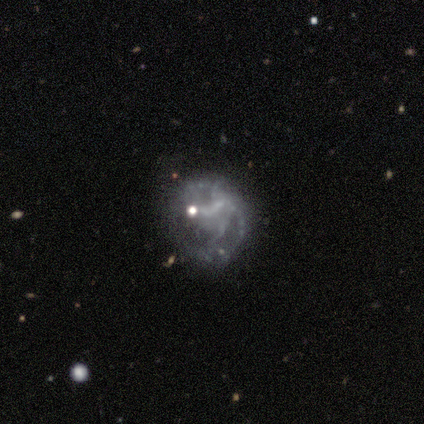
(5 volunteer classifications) A featured or disk galaxy (60%) with no bar (67%), 4 (50%, tied with can't tell) medium (100%) spiral arms (67%) and no central bulge (67%).

Vote fractions:
- Smooth or featured? featured or disk: 60% / smooth: 20% / star or artifact: 20%
- Edge-on disk? no: 100% / yes: 0%
- Bar? no: 67% / weak: 33% / strong: 0%
- Spiral arms? yes: 67% / no: 33%
- Spiral winding? medium: 100% / tight: 0% / loose: 0%
- Spiral arm count? 4: 50% (tied) / can't tell: 50% (tied) / 1: 0% / 2: 0% / 3: 0% / more than 4: 0%
- Bulge size? none: 67% / small: 33% / dominant: 0% / large: 0% / moderate: 0%
- Merging? minor disturbance: 50% (tied) / major disturbance: 50% (tied) / none: 0% / merger: 0%